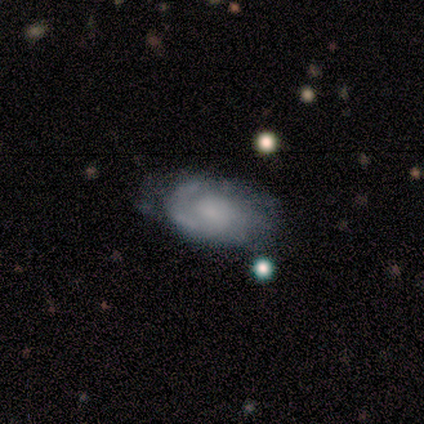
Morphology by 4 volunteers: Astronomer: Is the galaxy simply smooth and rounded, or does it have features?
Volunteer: smooth — 50%, tied with featured or disk at 50%.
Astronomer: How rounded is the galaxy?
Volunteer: in between — 100%.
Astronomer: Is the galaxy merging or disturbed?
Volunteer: none — 50%, tied with minor disturbance at 50%.